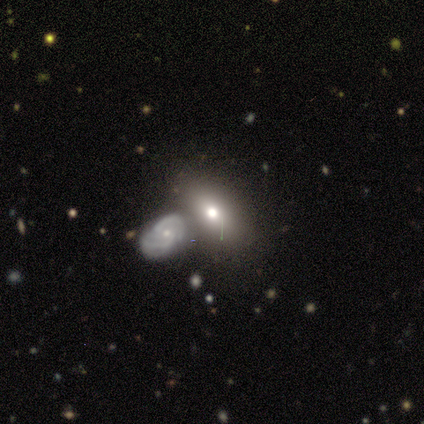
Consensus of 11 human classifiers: smooth-or-featured: smooth: 64% | featured or disk: 36% | star or artifact: 0%
  how-rounded: in between: 100% | round: 0% | cigar-shaped: 0%
  merging: none: 36% (tied) | merger: 36% (tied) | minor disturbance: 18% | major disturbance: 9%